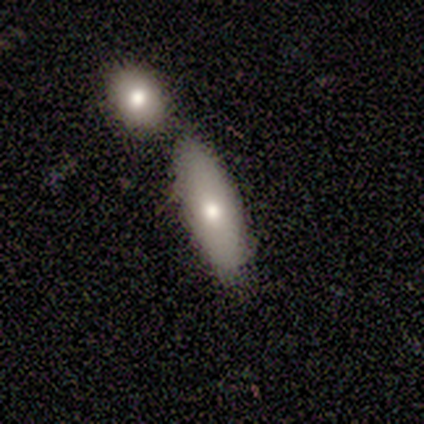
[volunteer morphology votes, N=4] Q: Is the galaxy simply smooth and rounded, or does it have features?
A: smooth — 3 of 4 (75%).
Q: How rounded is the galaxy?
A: in between — 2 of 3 (67%).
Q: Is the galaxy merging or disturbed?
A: none — 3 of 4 (75%).